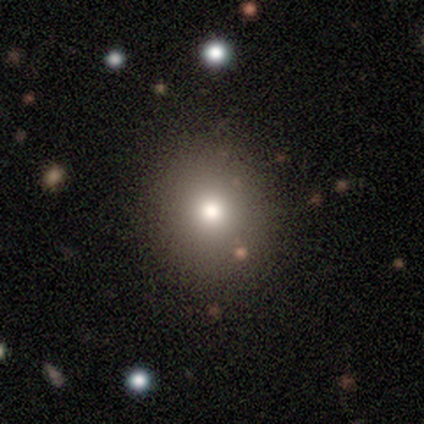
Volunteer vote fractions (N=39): Morphology: type=smooth (74%); roundness=round (76%); merging=none (64%).